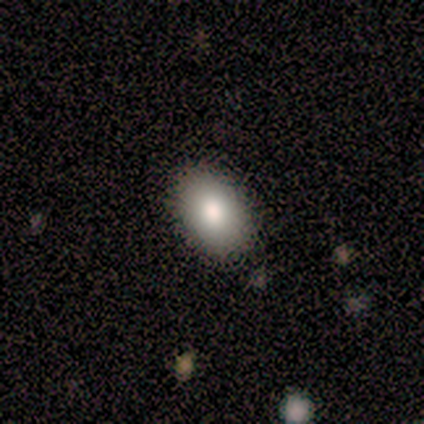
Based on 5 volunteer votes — Smooth or featured?
  - smooth: 80% *
  - star or artifact: 20%
  - featured or disk: 0%
How rounded?
  - in between: 75% *
  - round: 25%
  - cigar-shaped: 0%
Merging?
  - none: 100% *
  - minor disturbance: 0%
  - major disturbance: 0%
  - merger: 0%